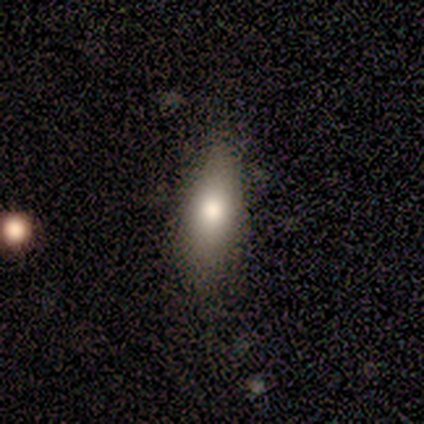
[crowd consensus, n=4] Smooth or featured: smooth — 100%
How rounded: in between — 50% (tied with cigar-shaped — 50%)
Merging: none — 100%